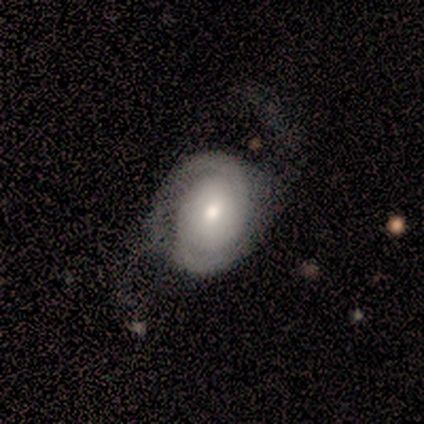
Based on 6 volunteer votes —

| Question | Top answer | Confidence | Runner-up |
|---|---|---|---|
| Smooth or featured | featured or disk | 83% | star or artifact (17%) |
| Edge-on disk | no | 100% | — |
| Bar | no | 80% | weak (20%) |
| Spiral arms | yes | 100% | — |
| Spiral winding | tight | 40% | tied: medium (40%) |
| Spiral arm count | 2 | 100% | — |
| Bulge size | moderate | 40% | tied: small (40%) |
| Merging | none | 80% | major disturbance (20%) |